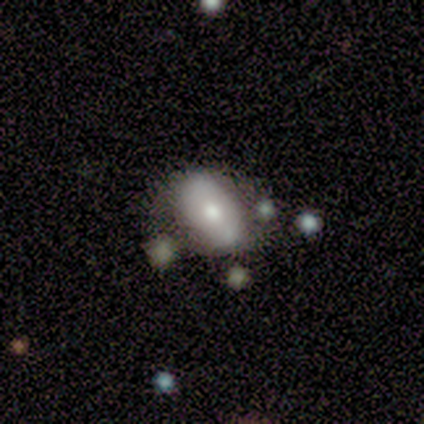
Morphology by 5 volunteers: smooth 80%, featured or disk 20%, star or artifact 0%. Down the decision tree: how rounded — in between (75%); merging — none (60%).